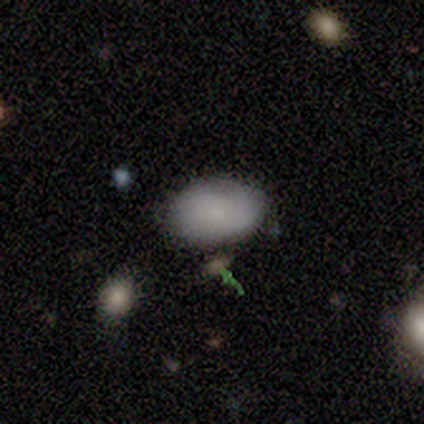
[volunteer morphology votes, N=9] This is clearly a smooth galaxy (100%). How rounded: clearly in between (100%). Merging: likely none (78%).